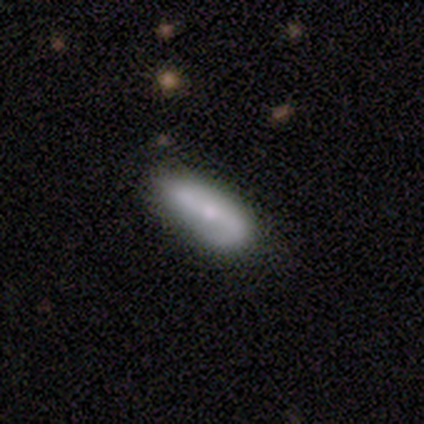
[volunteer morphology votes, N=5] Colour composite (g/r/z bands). It shows a smooth galaxy with no disk features (80%) that is in between round and cigar-shaped (50%, tied with cigar-shaped). Merging: none (100%).